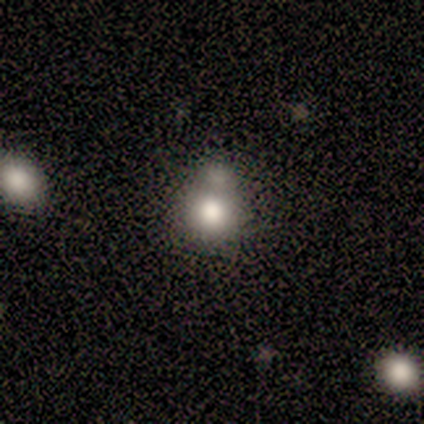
Smooth or featured? smooth (67%)
How rounded? round (100%)
Merging? merger (60%)